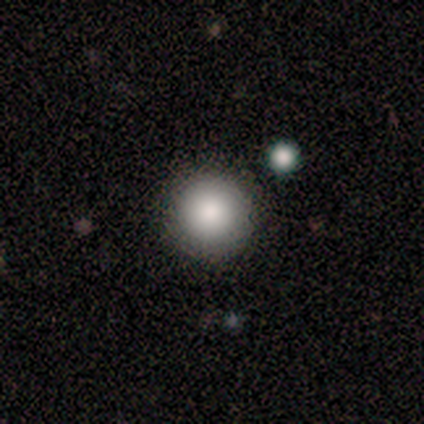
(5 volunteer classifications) Consensus on every question: smooth or featured — smooth (100%); how rounded — round (100%); merging — none (100%).